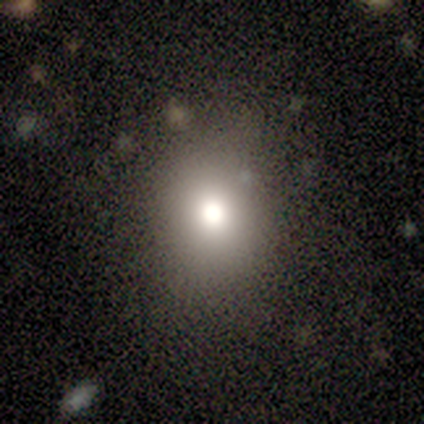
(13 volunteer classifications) Volunteers were most divided on "how rounded": in between: 70%, round: 30%, cigar-shaped: 0%. More confident: merging — none (82%); smooth or featured — smooth (77%).